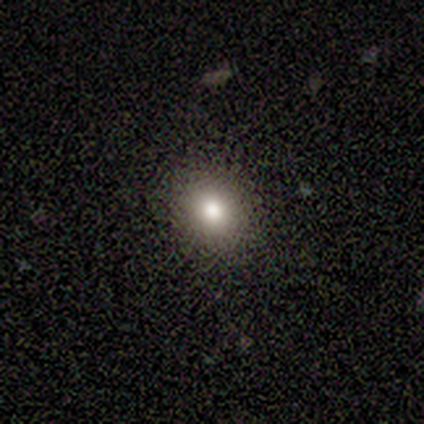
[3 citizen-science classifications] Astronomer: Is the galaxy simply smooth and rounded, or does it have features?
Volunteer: smooth — 67%.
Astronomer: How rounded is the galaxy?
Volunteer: round — 50%, tied with in between at 50%.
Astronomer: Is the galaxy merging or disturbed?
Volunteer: none — 100%.